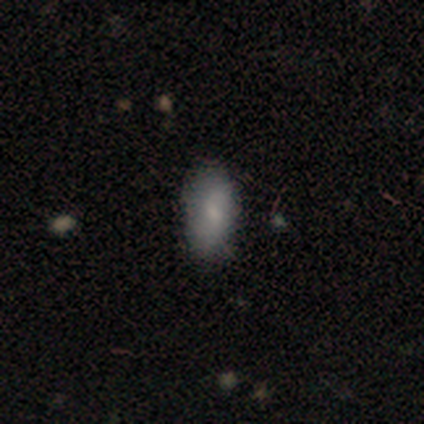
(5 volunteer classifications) A smooth galaxy with no disk features (60%) that is in between round and cigar-shaped (100%). Merging: none (100%).